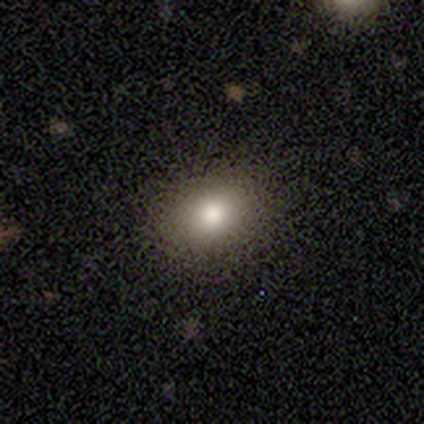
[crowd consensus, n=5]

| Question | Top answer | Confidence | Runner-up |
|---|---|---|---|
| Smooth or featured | smooth | 100% | — |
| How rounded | round | 60% | in between (40%) |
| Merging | none | 80% | minor disturbance (20%) |